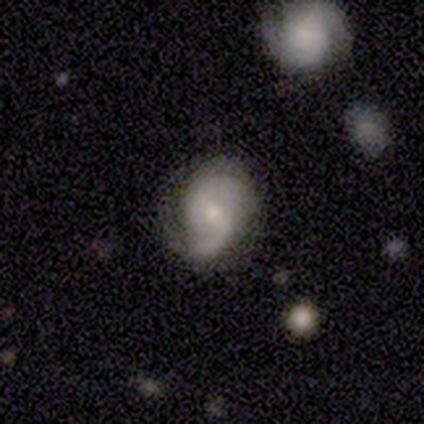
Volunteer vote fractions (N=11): This is possibly a featured or disk galaxy (55%). It is likely not viewed edge-on (67%). Bar: likely weak (75%). Spiral arm pattern: clearly yes (100%). Spiral arm count: clearly 2 (100%). Spiral winding: possibly tight (50%). Central bulge: possibly moderate (50%, tied with small). Merging: possibly none (55%).